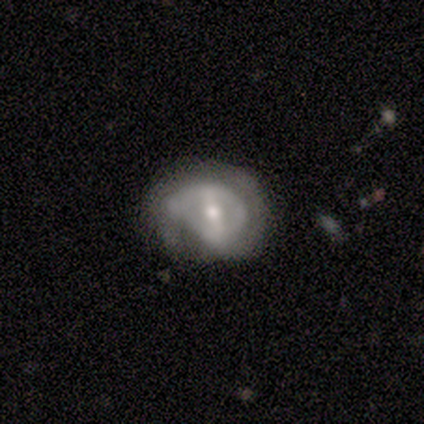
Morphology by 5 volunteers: smooth-or-featured: featured or disk: 80% | star or artifact: 20% | smooth: 0%
  disk-edge-on: no: 100% | yes: 0%
    bar: strong: 75% | no: 25% | weak: 0%
    has-spiral-arms: yes: 50% (tied) | no: 50% (tied)
      spiral-winding: tight: 100% | medium: 0% | loose: 0%
      spiral-arm-count: 2: 100% | 1: 0% | 3: 0% | 4: 0% | more than 4: 0% | can't tell: 0%
    bulge-size: moderate: 100% | dominant: 0% | large: 0% | small: 0% | none: 0%
  merging: none: 50% (tied) | major disturbance: 50% (tied) | minor disturbance: 0% | merger: 0%